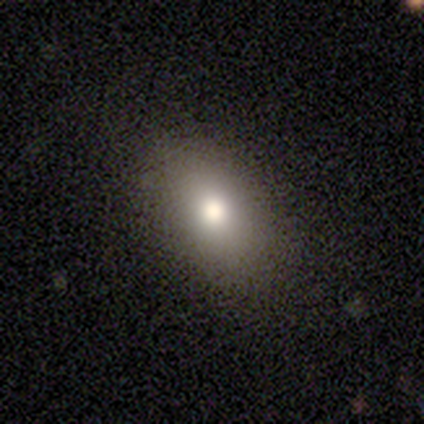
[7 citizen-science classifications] A smooth galaxy with no disk features (100%) that is in between round and cigar-shaped (86%).

Vote fractions:
- Smooth or featured? smooth: 100% / featured or disk: 0% / star or artifact: 0%
- How rounded? in between: 86% / round: 14% / cigar-shaped: 0%
- Merging? none: 71% / minor disturbance: 29% / major disturbance: 0% / merger: 0%